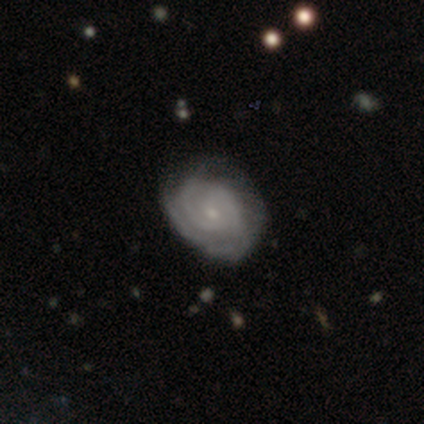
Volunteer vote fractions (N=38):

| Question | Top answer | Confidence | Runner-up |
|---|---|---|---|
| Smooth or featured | featured or disk | 92% | smooth (5%) |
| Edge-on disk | no | 97% | yes (3%) |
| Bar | no | 82% | weak (18%) |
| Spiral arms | yes | 94% | no (6%) |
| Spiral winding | tight | 91% | medium (6%) |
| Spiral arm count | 2 | 34% | 3 (28%) |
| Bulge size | small | 88% | moderate (12%) |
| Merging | none | 73% | minor disturbance (22%) |